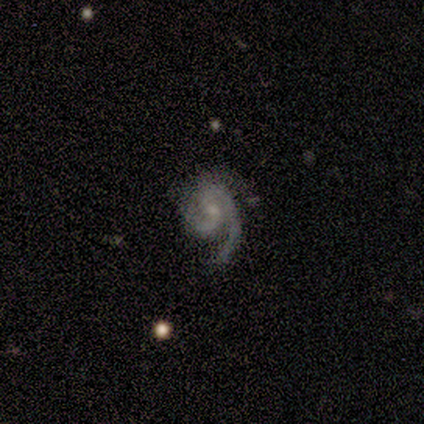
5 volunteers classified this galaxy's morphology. Smooth or featured? featured or disk (100%)
Edge-on disk? no (100%)
Bar? no (60%)
Spiral arms? yes (100%)
Spiral winding? medium (60%)
Spiral arm count? 2 (60%)
Bulge size? moderate (40%, tied with small)
Merging? none (40%, tied with major disturbance)